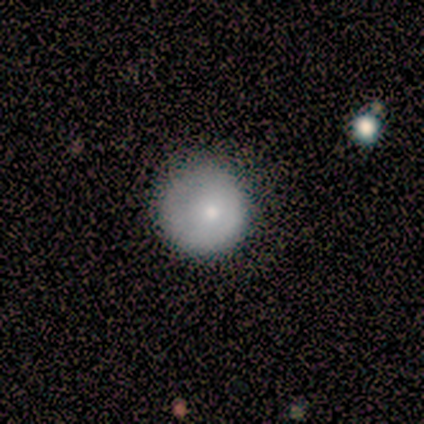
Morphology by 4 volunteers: This is clearly a smooth galaxy (100%). How rounded: likely round (75%). Merging: clearly none (100%).